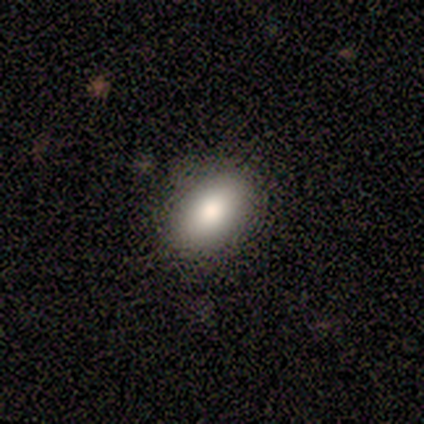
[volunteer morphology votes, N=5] type=smooth (100%); roundness=in between (60%); merging=none (100%).